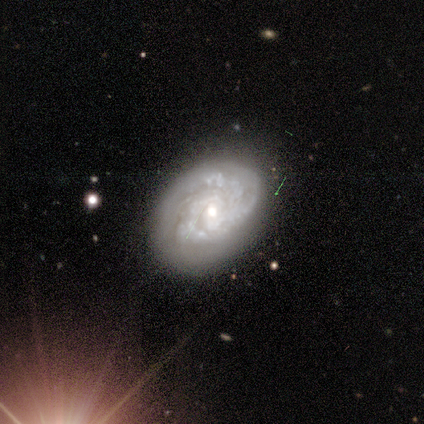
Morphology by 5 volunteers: A featured or disk galaxy (80%) with no bar (75%), tight (75%) spiral arms (100%) and a moderate central bulge (100%).

Vote fractions:
- Smooth or featured? featured or disk: 80% / smooth: 20% / star or artifact: 0%
- Edge-on disk? no: 100% / yes: 0%
- Bar? no: 75% / weak: 25% / strong: 0%
- Spiral arms? yes: 100% / no: 0%
- Spiral winding? tight: 75% / medium: 25% / loose: 0%
- Spiral arm count? can't tell: 50% / 3: 25% / 4: 25% / 1: 0% / 2: 0% / more than 4: 0%
- Bulge size? moderate: 100% / dominant: 0% / large: 0% / small: 0% / none: 0%
- Merging? none: 60% / minor disturbance: 20% / merger: 20% / major disturbance: 0%